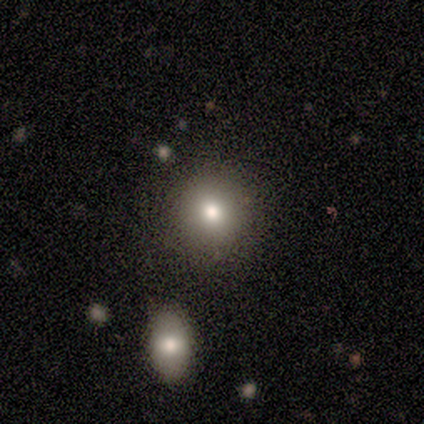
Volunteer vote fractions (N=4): Smooth or featured: smooth — 100%
How rounded: round — 100%
Merging: none — 100%